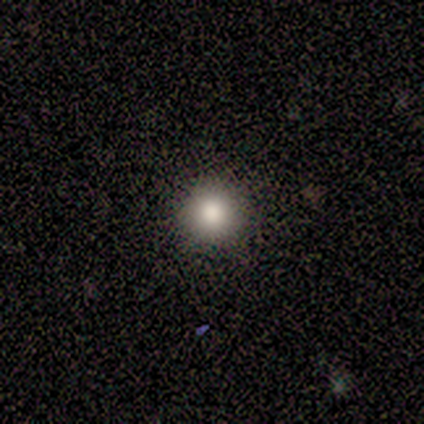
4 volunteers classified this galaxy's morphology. smooth 100%, featured or disk 0%, star or artifact 0%. Down the decision tree: how rounded — round (100%); merging — none (100%).